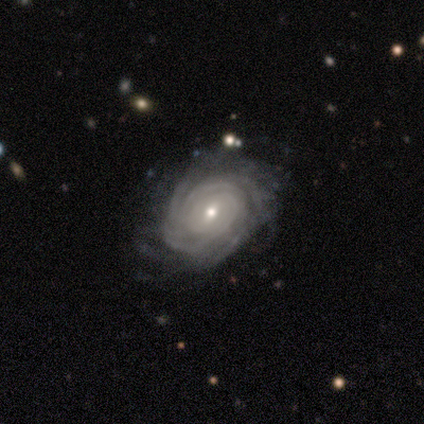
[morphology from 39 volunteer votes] Smooth or featured: featured or disk — 87% (star or artifact — 8%)
Edge-on disk: no — 100%
Bar: weak — 62% (no — 29%)
Spiral arms: yes — 97% (no — 3%)
Spiral winding: tight — 91% (medium — 9%)
Spiral arm count: can't tell — 36% (more than 4 — 33%)
Bulge size: small — 56% (moderate — 41%)
Merging: none — 61% (minor disturbance — 28%)